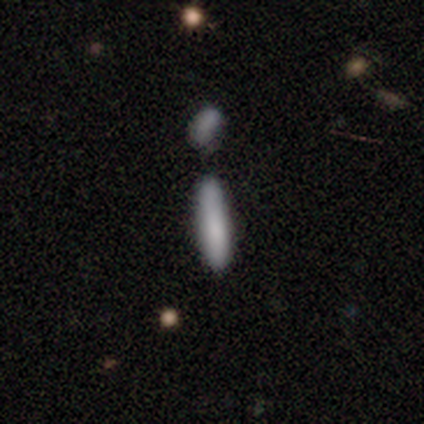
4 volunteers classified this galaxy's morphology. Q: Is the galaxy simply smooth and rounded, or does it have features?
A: smooth — 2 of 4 (50%, tied with featured or disk).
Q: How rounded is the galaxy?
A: in between — 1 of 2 (50%, tied with cigar-shaped).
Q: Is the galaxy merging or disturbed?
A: none — 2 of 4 (50%).